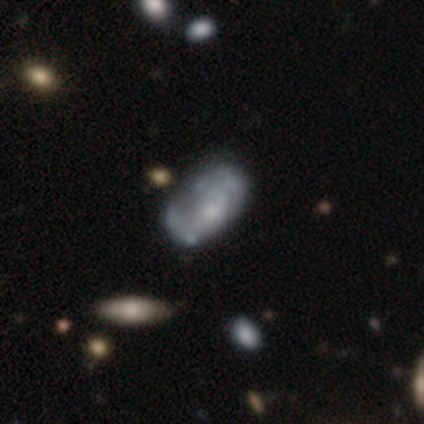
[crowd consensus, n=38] Smooth or featured? 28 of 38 (74%) said featured or disk. Edge-on disk? 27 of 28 (96%) said no. Bar? 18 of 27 (67%) said no. Spiral arms? 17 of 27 (63%) said no. Bulge size? 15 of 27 (56%) said small. Merging? 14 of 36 (39%) said minor disturbance.